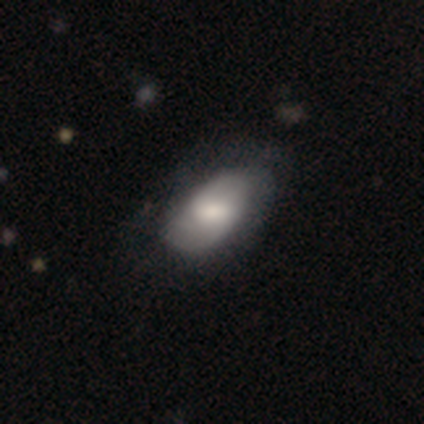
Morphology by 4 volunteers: A smooth galaxy with no disk features (50%, tied with featured or disk) that is in between round and cigar-shaped (100%). Merging: none (75%).